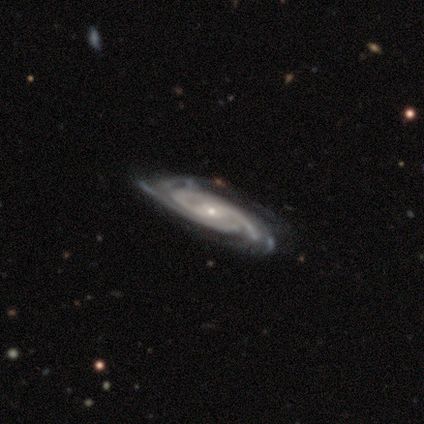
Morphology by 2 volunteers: type=featured or disk (100%); edge-on=no (100%); bar=no (100%); spiral arms=yes (100%); winding=tight (100%); arm count=3 (50%, tied with 4); bulge=small (100%); merging=none (100%).